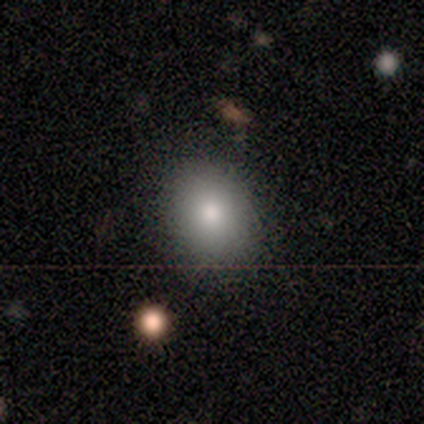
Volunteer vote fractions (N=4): Morphology: type=smooth (75%); roundness=in between (67%); merging=none (50%, tied with merger).